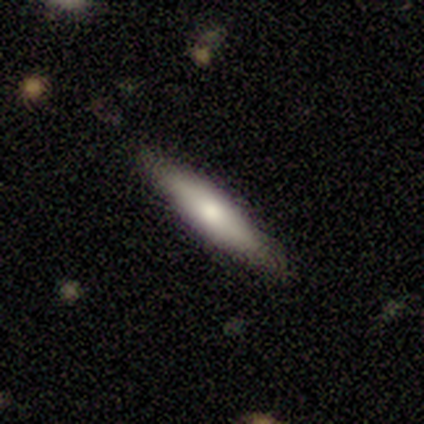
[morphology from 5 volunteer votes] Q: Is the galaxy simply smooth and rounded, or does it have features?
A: smooth — 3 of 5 (60%).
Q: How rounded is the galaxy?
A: cigar-shaped — 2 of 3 (67%).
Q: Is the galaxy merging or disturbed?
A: none — 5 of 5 (100%).